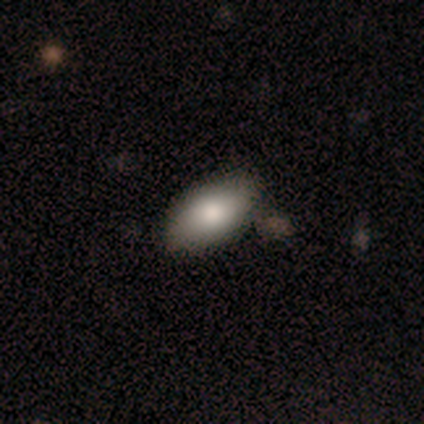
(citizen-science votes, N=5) smooth-or-featured: smooth: 100% | featured or disk: 0% | star or artifact: 0%
  how-rounded: in between: 100% | round: 0% | cigar-shaped: 0%
  merging: none: 100% | minor disturbance: 0% | major disturbance: 0% | merger: 0%